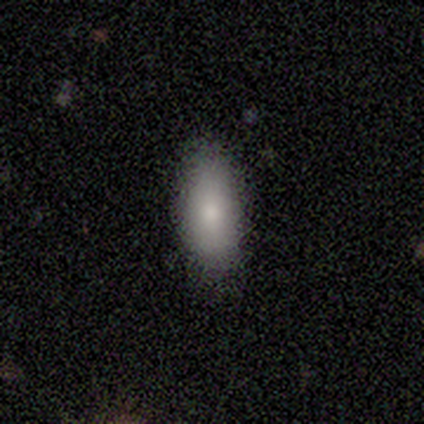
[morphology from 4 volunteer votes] This is clearly a smooth galaxy (100%). How rounded: likely in between (75%). Merging: clearly none (100%).